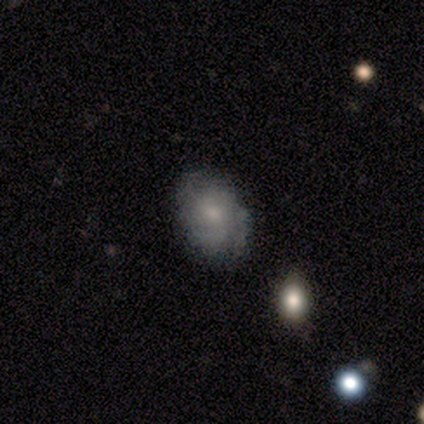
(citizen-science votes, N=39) This is likely a featured or disk galaxy (67%). It is clearly not viewed edge-on (100%). Bar: likely no (77%). Spiral arm pattern: clearly yes (85%). Spiral arm count: possibly can't tell (50%). Spiral winding: likely tight (73%). Central bulge: clearly small (88%). Merging: clearly none (80%).